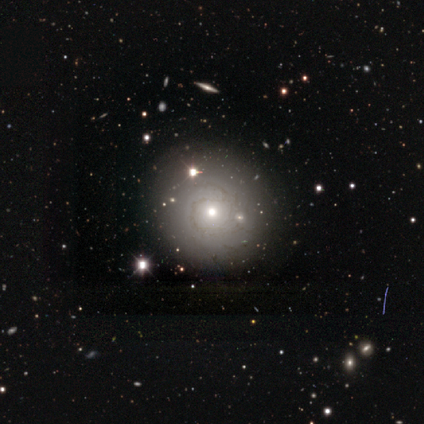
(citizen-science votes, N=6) Smooth or featured? featured or disk (67%)
Edge-on disk? no (100%)
Bar? no (100%)
Spiral arms? yes (75%)
Spiral winding? medium (67%)
Spiral arm count? can't tell (100%)
Bulge size? moderate (75%)
Merging? none (80%)